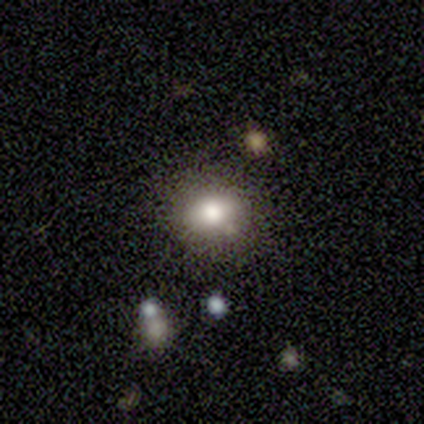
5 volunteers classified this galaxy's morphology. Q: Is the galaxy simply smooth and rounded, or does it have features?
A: smooth — 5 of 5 (100%).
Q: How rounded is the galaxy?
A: round — 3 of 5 (60%).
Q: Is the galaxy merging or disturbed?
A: none — 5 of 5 (100%).